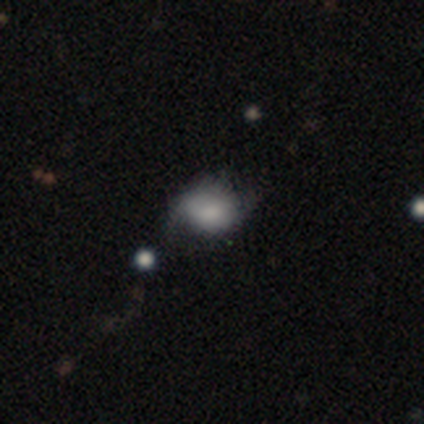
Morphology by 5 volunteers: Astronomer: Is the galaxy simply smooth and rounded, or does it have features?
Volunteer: smooth — 100%.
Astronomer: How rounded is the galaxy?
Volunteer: round — 80%.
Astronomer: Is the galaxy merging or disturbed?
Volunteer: none — 60% (runner-up: minor disturbance, 40%).